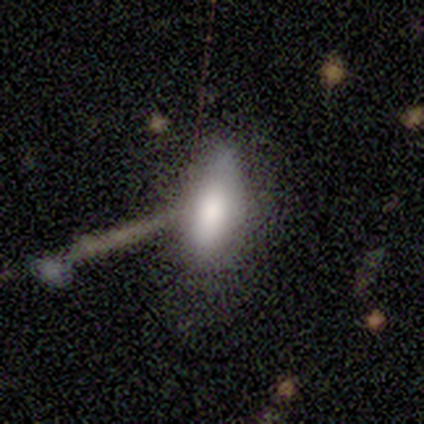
Smooth or featured? 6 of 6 (100%) said smooth. How rounded? 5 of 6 (83%) said in between. Merging? 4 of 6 (67%) said none.